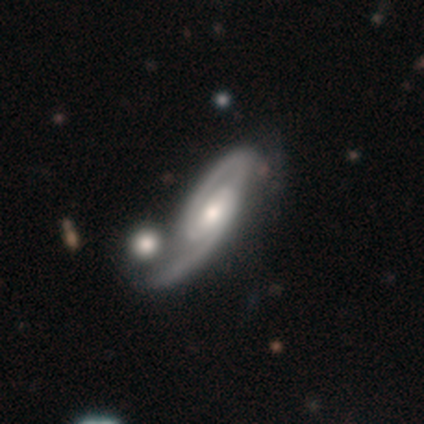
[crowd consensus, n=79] Smooth or featured?
  - featured or disk: 90% *
  - smooth: 8%
  - star or artifact: 3%
Edge-on disk?
  - no: 93% *
  - yes: 7%
Bar?
  - weak: 47% *
  - no: 33%
  - strong: 20%
Spiral arms?
  - yes: 100% *
  - no: 0%
Spiral winding?
  - medium: 55% *
  - tight: 30%
  - loose: 15%
Spiral arm count?
  - 2: 85% *
  - can't tell: 9%
  - 1: 6%
  - 3: 0%
  - 4: 0%
  - more than 4: 0%
Bulge size?
  - moderate: 68% *
  - small: 17%
  - large: 14%
  - none: 2%
  - dominant: 0%
Merging?
  - merger: 31% *
  - none: 22%
  - minor disturbance: 8%
  - major disturbance: 3%